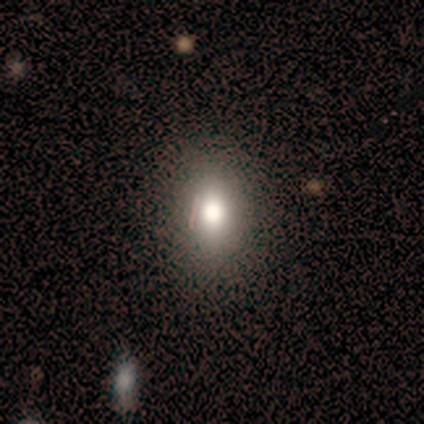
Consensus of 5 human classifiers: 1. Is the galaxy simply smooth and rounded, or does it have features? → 80% smooth, 20% star or artifact, 0% featured or disk.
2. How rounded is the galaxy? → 50% round (tied), 50% in between (tied), 0% cigar-shaped.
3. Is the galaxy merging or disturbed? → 75% none, 25% minor disturbance, 0% major disturbance, 0% merger.